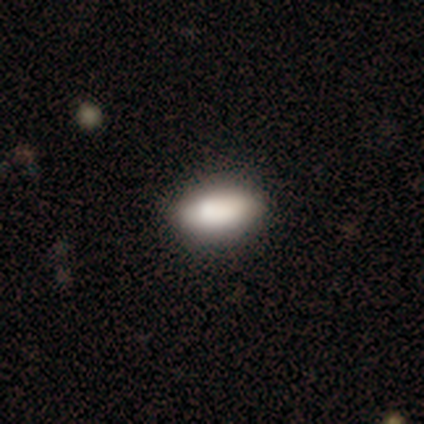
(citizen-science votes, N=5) This appears to be a smooth galaxy with no disk features (60%) that is in between round and cigar-shaped (67%). Merging: none (80%).